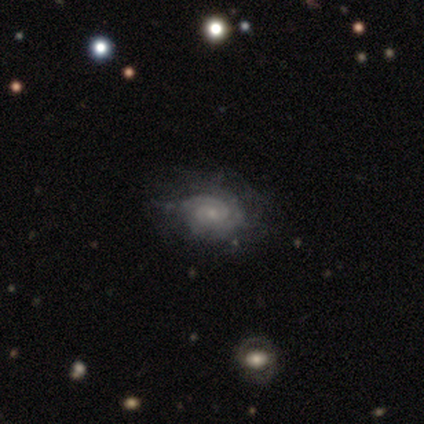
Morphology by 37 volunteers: Q: Smooth or featured?
A: featured or disk (73%); runner-up: smooth (16%)
Q: Edge-on disk?
A: no (100%)
Q: Bar?
A: no (74%); runner-up: weak (26%)
Q: Spiral arms?
A: yes (93%); runner-up: no (7%)
Q: Spiral winding?
A: tight (80%); runner-up: medium (16%)
Q: Spiral arm count?
A: can't tell (40%); runner-up: 2 (32%)
Q: Bulge size?
A: small (78%); runner-up: none (15%)
Q: Merging?
A: none (61%); runner-up: minor disturbance (30%)